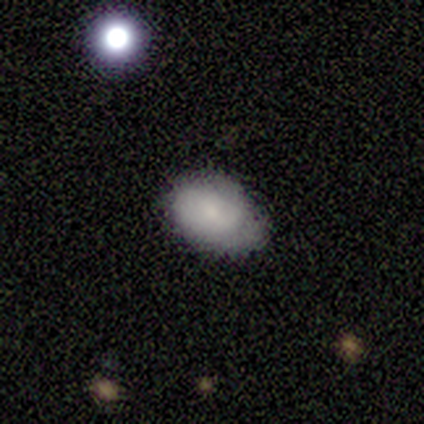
A smooth galaxy with no disk features (75%) that is round (67%). Merging: none (75%).